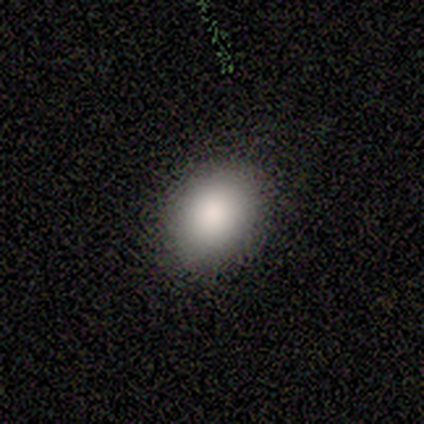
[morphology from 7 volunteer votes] A smooth galaxy with no disk features (71%) that is in between round and cigar-shaped (80%).

Vote fractions:
- Smooth or featured? smooth: 71% / star or artifact: 29% / featured or disk: 0%
- How rounded? in between: 80% / round: 20% / cigar-shaped: 0%
- Merging? none: 100% / minor disturbance: 0% / major disturbance: 0% / merger: 0%